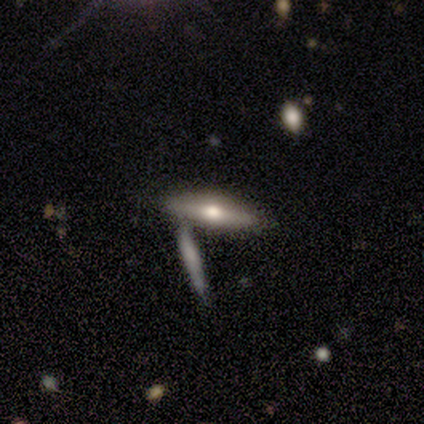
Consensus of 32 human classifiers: Smooth or featured?
  - featured or disk: 59% *
  - smooth: 41%
  - star or artifact: 0%
Edge-on disk?
  - yes: 95% *
  - no: 5%
Edge-on bulge?
  - rounded: 100% *
  - boxy: 0%
  - none: 0%
Merging?
  - merger: 59% *
  - none: 0%
  - minor disturbance: 0%
  - major disturbance: 0%